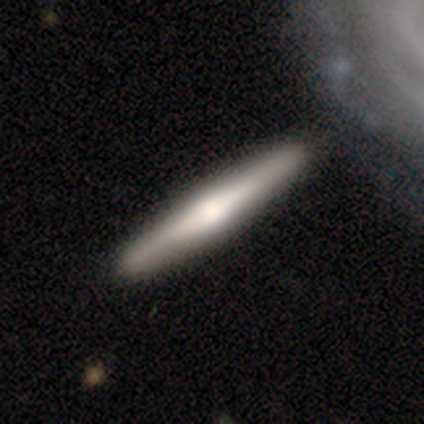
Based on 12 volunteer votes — featured or disk 67%, smooth 33%, star or artifact 0%. Down the decision tree: edge-on disk — yes (100%); edge-on bulge — rounded (62%); merging — none (92%).